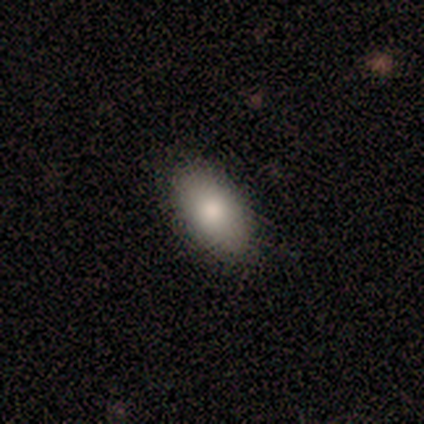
Morphology: type=smooth (80%); roundness=in between (100%); merging=none (80%).